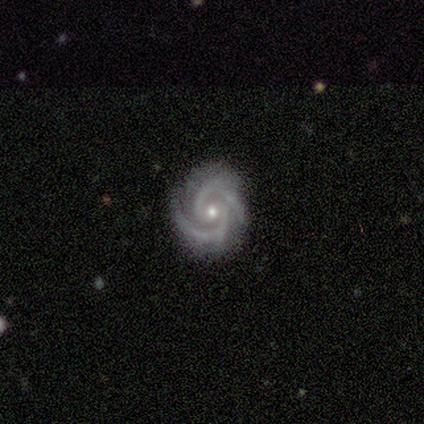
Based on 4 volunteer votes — Morphology: type=featured or disk (100%); edge-on=no (100%); bar=weak (50%); spiral arms=yes (100%); winding=medium (75%); arm count=2 (100%); bulge=small (100%); merging=none (75%).